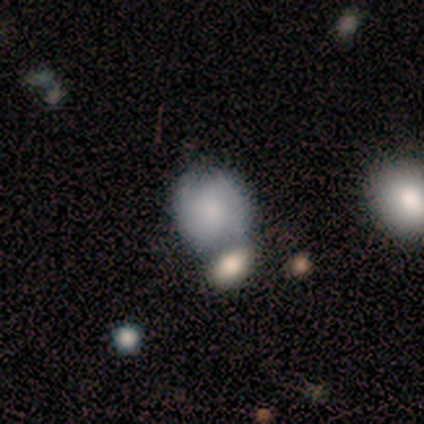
A featured or disk galaxy (60%) with a weak bar (67%), 2 (100%) medium (50%, tied with loose) spiral arms (67%) and a small central bulge (67%). Merging: merger (60%).